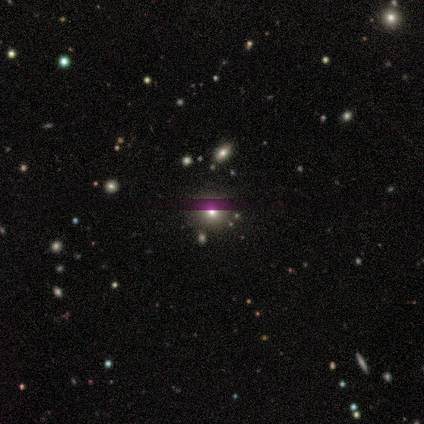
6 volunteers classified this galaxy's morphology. smooth 83%, star or artifact 17%, featured or disk 0%. Down the decision tree: how rounded — round (80%); merging — none (80%).